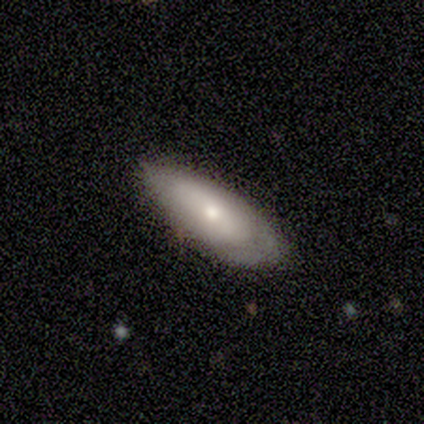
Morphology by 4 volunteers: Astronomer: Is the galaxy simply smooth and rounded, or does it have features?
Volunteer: smooth — 50%.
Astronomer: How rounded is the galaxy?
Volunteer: in between — 100%.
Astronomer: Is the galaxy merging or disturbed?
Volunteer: minor disturbance — 67%.